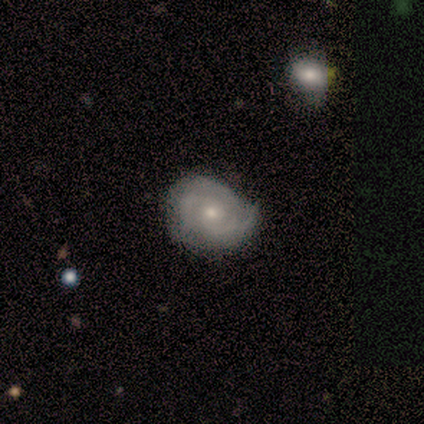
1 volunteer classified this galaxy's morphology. Consensus on every question: smooth or featured — smooth (100%); how rounded — in between (100%); merging — none (100%).